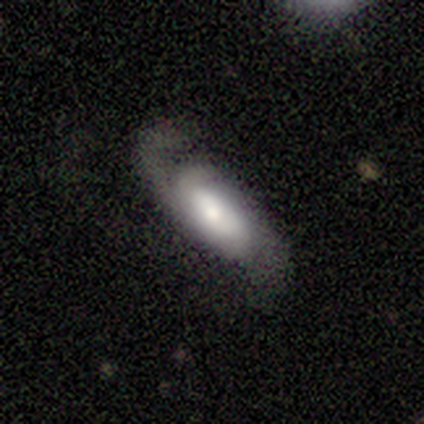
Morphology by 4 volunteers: A featured or disk galaxy (75%) with no bar (67%), 2 (100%) loose (67%) spiral arms (100%) and a dominant central bulge (33%, tied with large and moderate).

Vote fractions:
- Smooth or featured? featured or disk: 75% / smooth: 25% / star or artifact: 0%
- Edge-on disk? no: 100% / yes: 0%
- Bar? no: 67% / weak: 33% / strong: 0%
- Spiral arms? yes: 100% / no: 0%
- Spiral winding? loose: 67% / medium: 33% / tight: 0%
- Spiral arm count? 2: 100% / 1: 0% / 3: 0% / 4: 0% / more than 4: 0% / can't tell: 0%
- Bulge size? dominant: 33% (tied) / large: 33% (tied) / moderate: 33% (tied) / small: 0% / none: 0%
- Merging? none: 100% / minor disturbance: 0% / major disturbance: 0% / merger: 0%